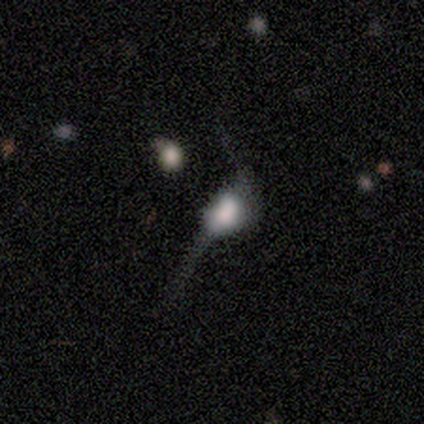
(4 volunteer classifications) smooth-or-featured: smooth: 50% (tied) | featured or disk: 50% (tied) | star or artifact: 0%
  how-rounded: in between: 100% | round: 0% | cigar-shaped: 0%
  merging: major disturbance: 75% | minor disturbance: 25% | none: 0% | merger: 0%